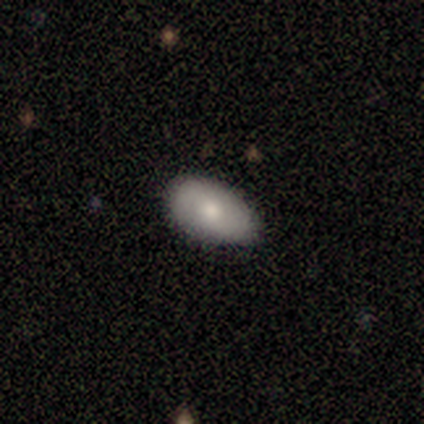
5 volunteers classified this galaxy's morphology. smooth 60%, featured or disk 40%, star or artifact 0%. Down the decision tree: how rounded — in between (100%); merging — none (80%).